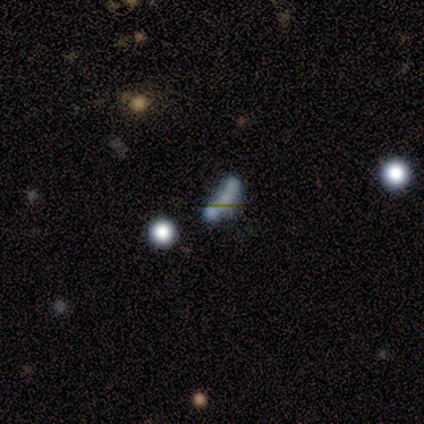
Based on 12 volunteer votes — Smooth or featured? featured or disk (42%)
Edge-on disk? no (100%)
Bar? no (60%)
Spiral arms? no (100%)
Bulge size? small (40%, tied with none)
Merging? none (56%)